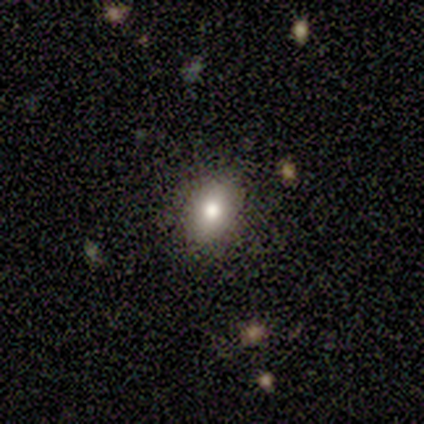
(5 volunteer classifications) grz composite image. It shows a smooth galaxy with no disk features (60%) that is in between round and cigar-shaped (100%). Merging: none (100%).